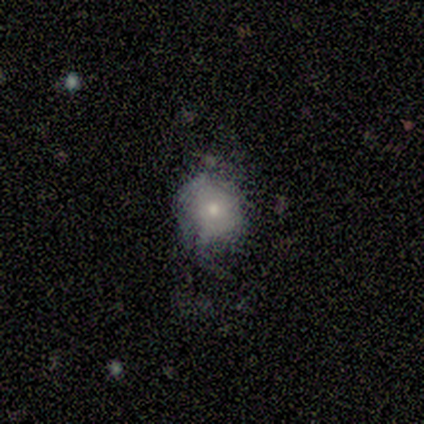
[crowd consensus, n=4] A smooth galaxy with no disk features (50%, tied with featured or disk) that is round (100%). Merging: none (50%).